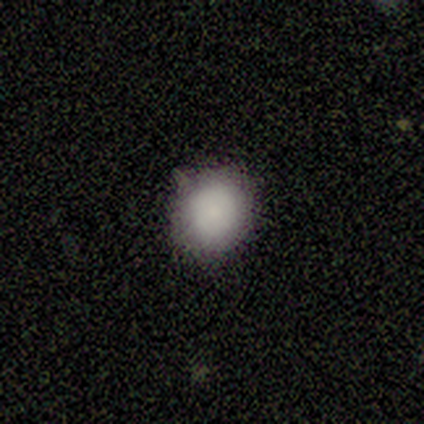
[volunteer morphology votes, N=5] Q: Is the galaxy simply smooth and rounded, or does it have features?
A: smooth — 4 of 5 (80%).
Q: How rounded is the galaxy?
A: round — 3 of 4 (75%).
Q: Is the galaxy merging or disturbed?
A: none — 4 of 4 (100%).